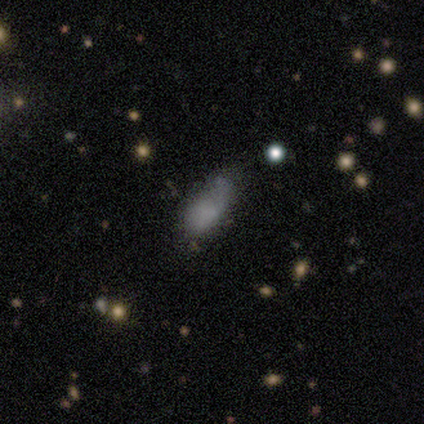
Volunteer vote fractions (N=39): smooth 77%, featured or disk 15%, star or artifact 8%. Down the decision tree: how rounded — in between (93%); merging — none (44%).